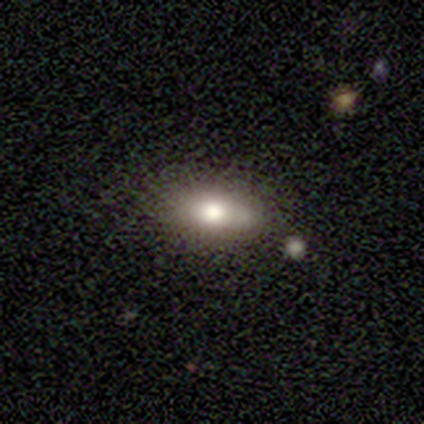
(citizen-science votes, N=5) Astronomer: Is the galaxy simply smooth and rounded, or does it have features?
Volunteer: smooth — 60%.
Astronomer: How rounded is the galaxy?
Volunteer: in between — 100%.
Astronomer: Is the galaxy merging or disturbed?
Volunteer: none — 75%.